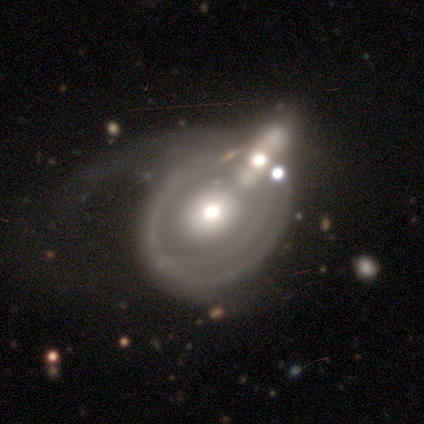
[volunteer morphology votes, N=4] A smooth galaxy with no disk features (50%, tied with featured or disk) that is round (100%).

Vote fractions:
- Smooth or featured? smooth: 50% (tied) / featured or disk: 50% (tied) / star or artifact: 0%
- How rounded? round: 100% / in between: 0% / cigar-shaped: 0%
- Merging? major disturbance: 50% / none: 25% / merger: 25% / minor disturbance: 0%